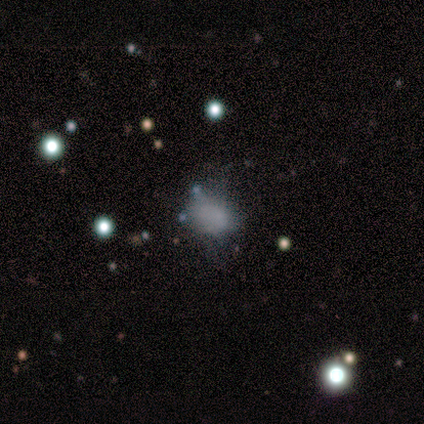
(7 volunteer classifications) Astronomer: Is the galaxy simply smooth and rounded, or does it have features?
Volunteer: star or artifact — 71%.